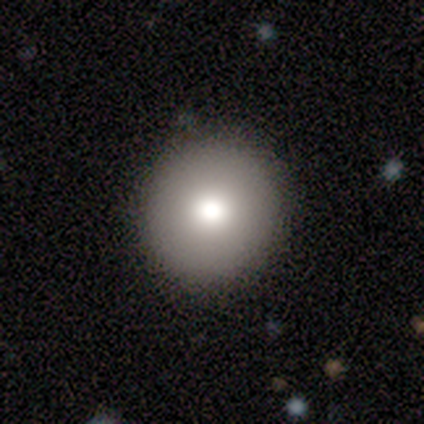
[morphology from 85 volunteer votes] smooth 78%, featured or disk 13%, star or artifact 9%. Down the decision tree: how rounded — round (97%); merging — none (88%).